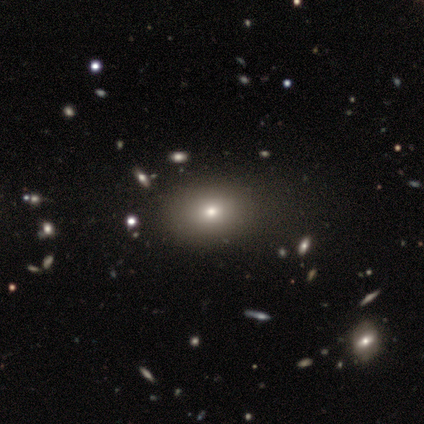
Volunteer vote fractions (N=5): A smooth galaxy with no disk features (60%) that is in between round and cigar-shaped (100%). Merging: none (100%).